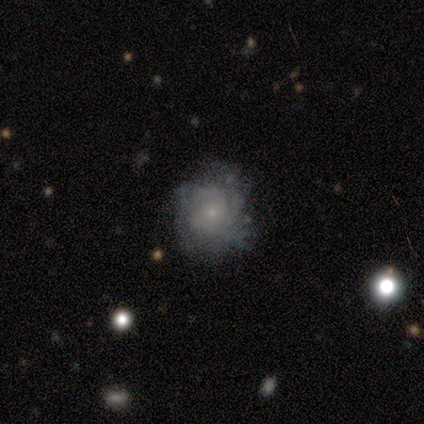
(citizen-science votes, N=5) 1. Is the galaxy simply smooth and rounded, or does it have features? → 60% smooth, 40% featured or disk, 0% star or artifact.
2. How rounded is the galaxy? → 67% round, 33% in between, 0% cigar-shaped.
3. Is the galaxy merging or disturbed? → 60% none, 20% minor disturbance, 20% major disturbance, 0% merger.